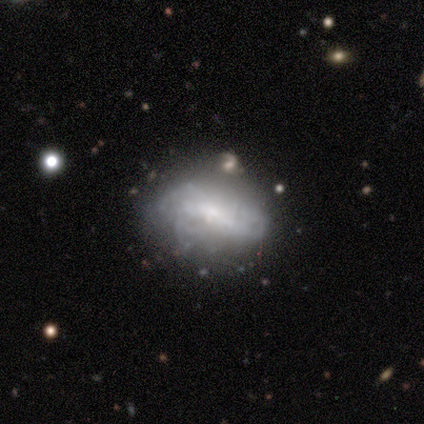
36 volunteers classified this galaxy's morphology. smooth-or-featured: featured or disk: 67% | smooth: 19% | star or artifact: 14%
  disk-edge-on: no: 96% | yes: 4%
    bar: no: 52% | weak: 30% | strong: 17%
    has-spiral-arms: no: 61% | yes: 39%
    bulge-size: small: 61% | none: 17% | large: 13% | moderate: 9% | dominant: 0%
  merging: none: 65% | minor disturbance: 32% | merger: 3% | major disturbance: 0%